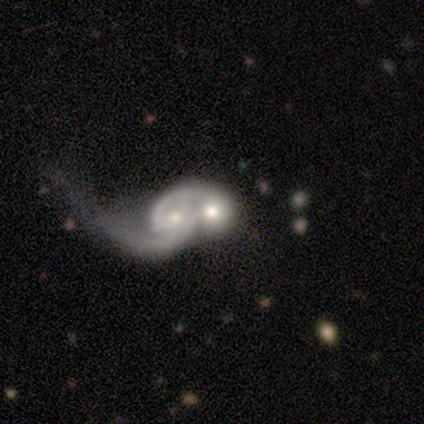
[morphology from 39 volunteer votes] smooth-or-featured: featured or disk: 77% | smooth: 21% | star or artifact: 3%
  disk-edge-on: no: 100% | yes: 0%
    bar: no: 50% | weak: 37% | strong: 13%
    has-spiral-arms: yes: 80% | no: 20%
      spiral-winding: medium: 38% | loose: 33% | tight: 29%
      spiral-arm-count: 2: 67% | 1: 17% | 3: 8% | can't tell: 8% | 4: 0% | more than 4: 0%
    bulge-size: moderate: 53% | small: 27% | large: 13% | dominant: 3% | none: 3%
  merging: merger: 61% | none: 3% | major disturbance: 3% | minor disturbance: 0%